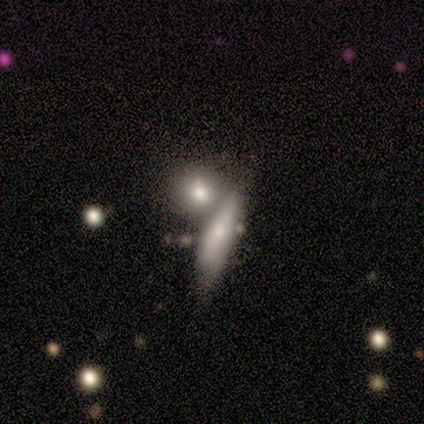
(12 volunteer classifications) smooth 83%, featured or disk 17%, star or artifact 0%. Down the decision tree: how rounded — in between (40%, tied with cigar-shaped); merging — merger (58%).